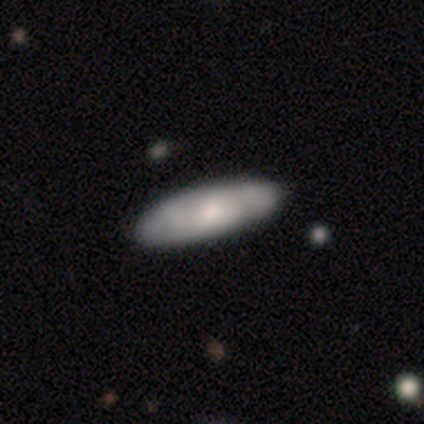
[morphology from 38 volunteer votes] smooth-or-featured: featured or disk: 61% | smooth: 34% | star or artifact: 5%
  disk-edge-on: no: 78% | yes: 22%
    bar: no: 67% | weak: 33% | strong: 0%
    has-spiral-arms: yes: 56% | no: 44%
      spiral-winding: tight: 50% | medium: 30% | loose: 20%
      spiral-arm-count: 2: 50% | can't tell: 30% | 3: 20% | 1: 0% | 4: 0% | more than 4: 0%
    bulge-size: moderate: 72% | small: 22% | none: 6% | dominant: 0% | large: 0%
  merging: none: 50% | minor disturbance: 14% | major disturbance: 3% | merger: 0%